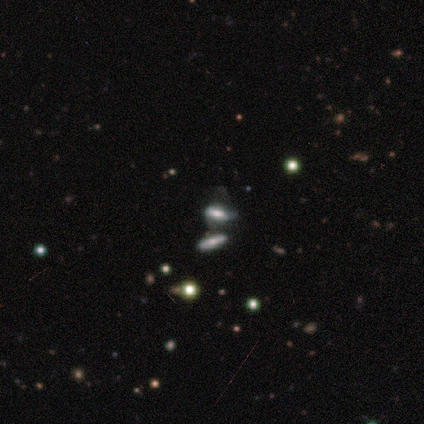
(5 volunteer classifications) Volunteers were most divided on "smooth or featured" (2-way tie): smooth: 40%, star or artifact: 40%, featured or disk: 20%. More confident: how rounded — in between (100%); merging — merger (67%).